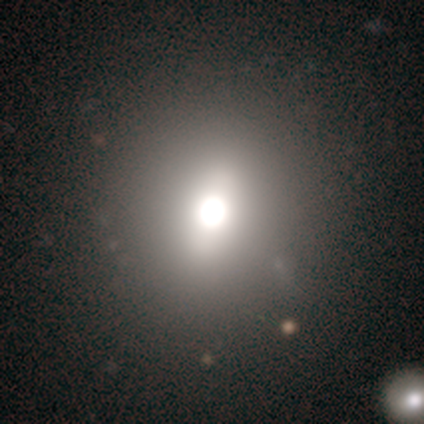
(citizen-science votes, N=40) Volunteers were most divided on "smooth or featured": smooth: 60%, star or artifact: 25%, featured or disk: 15%. More confident: how rounded — round (79%); merging — none (73%).